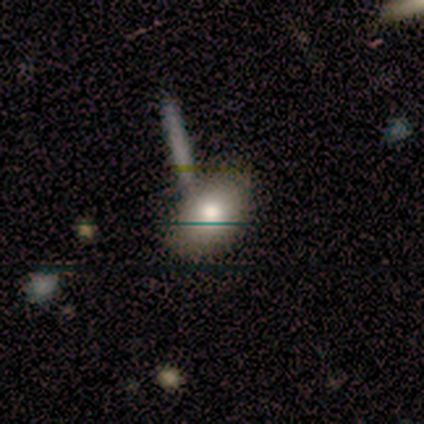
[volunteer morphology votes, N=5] This appears to be a smooth galaxy with no disk features (80%) that is in between round and cigar-shaped (100%). Merging: none (80%).